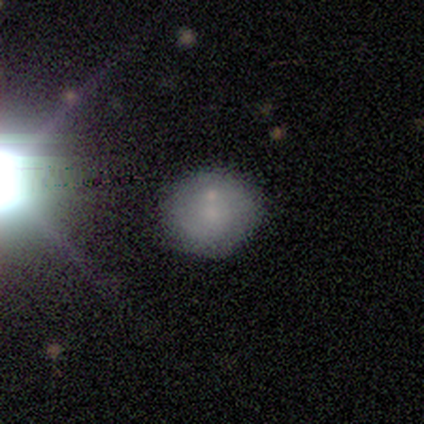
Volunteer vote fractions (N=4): Morphology: type=smooth (75%); roundness=round (100%); merging=none (75%).